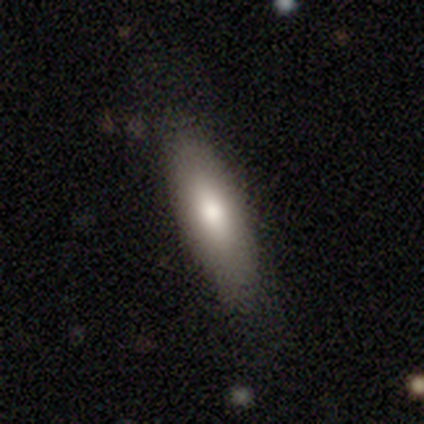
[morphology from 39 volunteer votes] smooth 87%, featured or disk 13%, star or artifact 0%. Down the decision tree: how rounded — in between (65%); merging — none (82%).